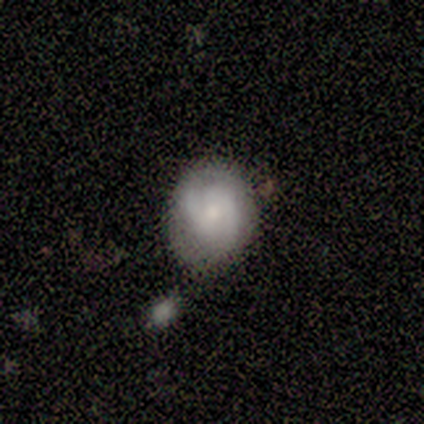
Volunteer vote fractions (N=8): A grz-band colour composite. It shows a smooth galaxy with no disk features (50%, tied with featured or disk) that is round (50%, tied with in between). Merging: minor disturbance (62%).